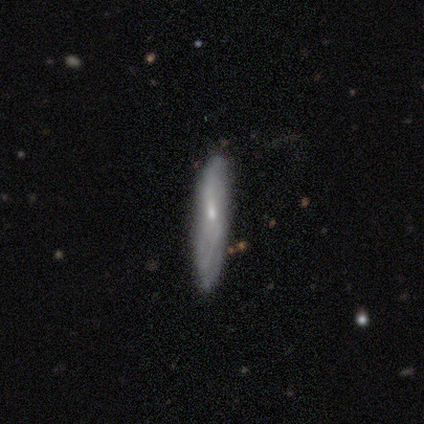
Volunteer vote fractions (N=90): Smooth or featured? smooth (54%)
How rounded? cigar-shaped (96%)
Merging? none (77%)